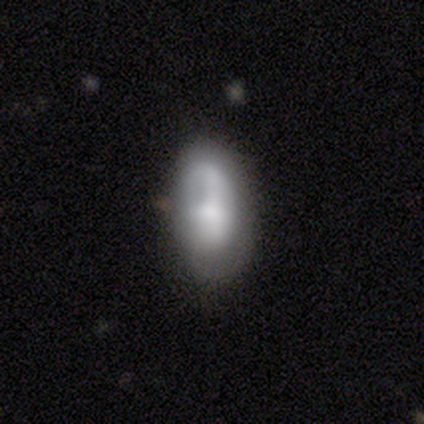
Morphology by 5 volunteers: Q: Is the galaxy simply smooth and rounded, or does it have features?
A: smooth — 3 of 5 (60%).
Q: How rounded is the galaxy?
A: in between — 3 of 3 (100%).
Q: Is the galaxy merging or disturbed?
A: none — 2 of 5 (40%, tied with minor disturbance).